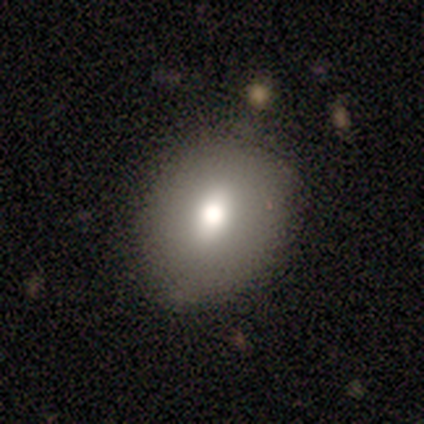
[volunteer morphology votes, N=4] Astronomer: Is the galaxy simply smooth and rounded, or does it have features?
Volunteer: smooth — 50%.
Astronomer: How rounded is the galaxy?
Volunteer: round — 50%, tied with in between at 50%.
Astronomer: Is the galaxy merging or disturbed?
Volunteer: none — 67%.